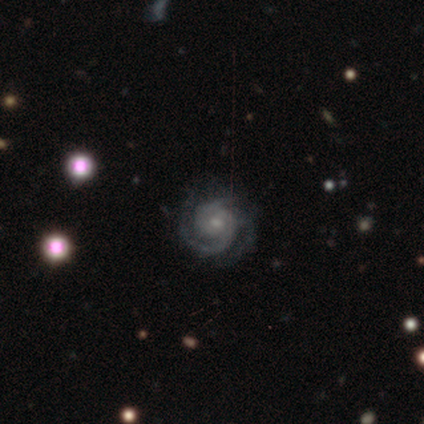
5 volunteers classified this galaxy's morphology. Volunteers were most divided on "spiral arm count" (4-way tie): 2: 25%, 3: 25%, 4: 25%, can't tell: 25%, 1: 0%, more than 4: 0%. More confident: edge-on disk — no (100%); bar — no (100%); spiral arms — yes (100%); smooth or featured — featured or disk (80%); merging — none (80%); spiral winding — tight (75%); bulge size — small (75%).